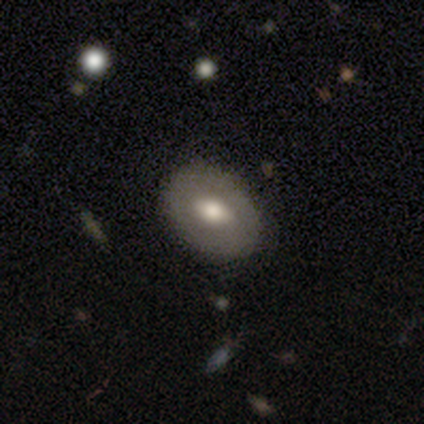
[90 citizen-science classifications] smooth_or_featured: smooth (p=0.53) [alt: featured or disk p=0.40]
how_rounded: in between (p=0.73) [alt: round p=0.27]
merging: none (p=0.85) [alt: minor disturbance p=0.11]